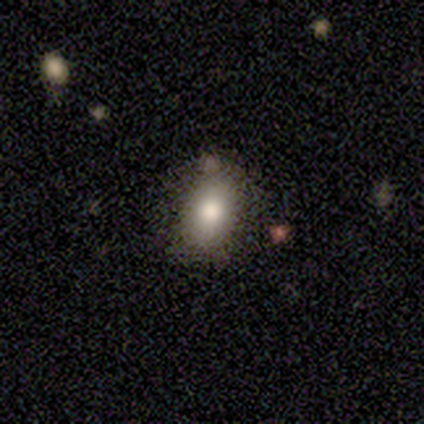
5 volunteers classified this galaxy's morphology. Overall: smooth (100%). How rounded: in between (80%). Merging: none (80%).